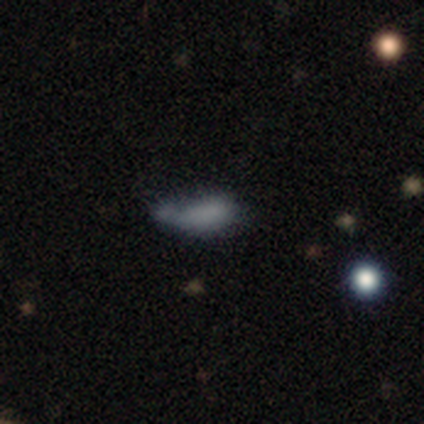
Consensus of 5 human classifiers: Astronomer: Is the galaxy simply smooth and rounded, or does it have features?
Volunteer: smooth — 80%.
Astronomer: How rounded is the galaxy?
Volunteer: in between — 100%.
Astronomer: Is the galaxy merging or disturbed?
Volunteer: minor disturbance — 50%.